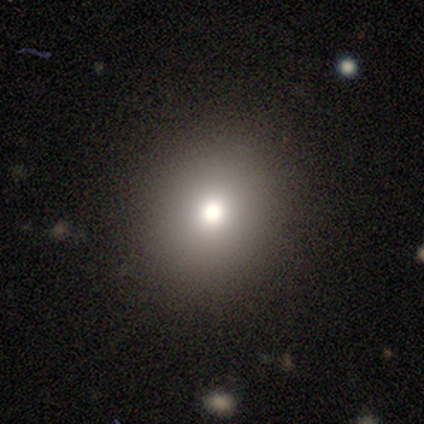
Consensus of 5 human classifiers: Morphology: type=star or artifact (60%).